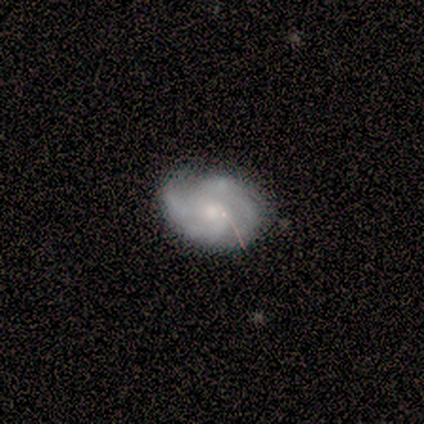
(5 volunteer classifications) Smooth or featured? featured or disk (80%)
Edge-on disk? no (100%)
Bar? weak (75%)
Spiral arms? yes (100%)
Spiral winding? medium (100%)
Spiral arm count? 2 (50%)
Bulge size? small (75%)
Merging? none (60%)